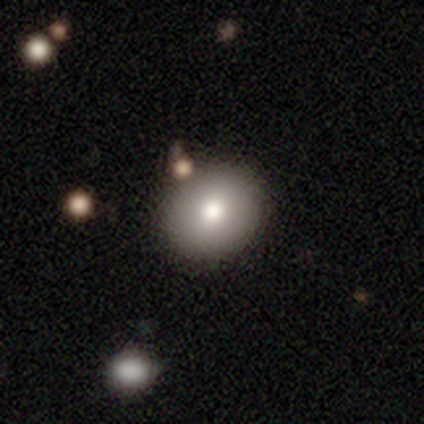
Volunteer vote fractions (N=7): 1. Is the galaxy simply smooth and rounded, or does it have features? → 86% smooth, 14% featured or disk, 0% star or artifact.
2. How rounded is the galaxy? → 100% round, 0% in between, 0% cigar-shaped.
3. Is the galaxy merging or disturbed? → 100% none, 0% minor disturbance, 0% major disturbance, 0% merger.